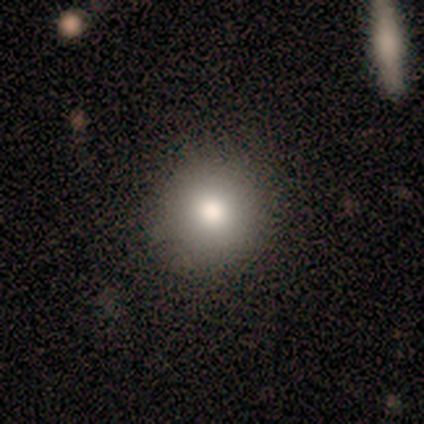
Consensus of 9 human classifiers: This is clearly a smooth galaxy (89%). How rounded: clearly round (100%). Merging: likely none (78%).